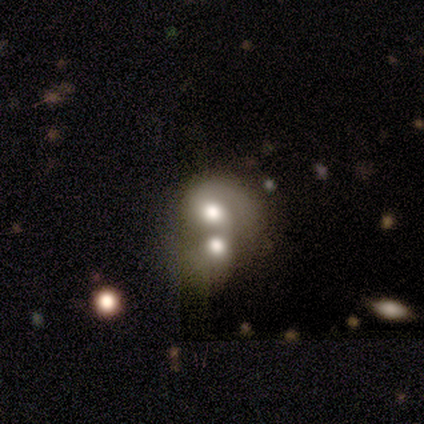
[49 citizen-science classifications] Overall: featured or disk (57%; smooth 35%). Edge-on disk: no (100%). Bar: no (68%). Spiral arms: yes (54%; no 46%). Spiral arm count: 1 (47%; can't tell 33%). Spiral winding: tight (40%; medium 33%). Bulge size: moderate (54%; large 36%). Merging: merger (84%).